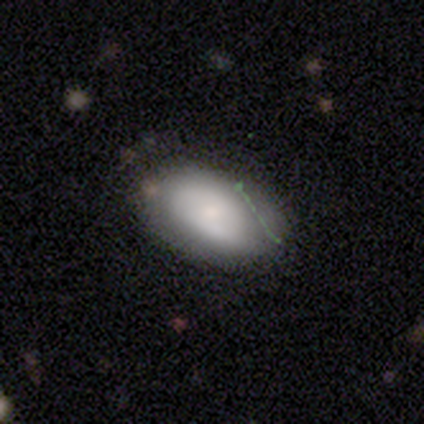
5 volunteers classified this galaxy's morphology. Overall: smooth (60%; featured or disk 40%). How rounded: in between (100%). Merging: none (60%; minor disturbance 20%).